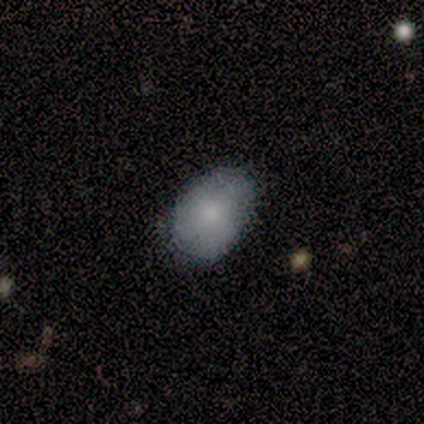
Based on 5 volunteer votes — Q: Smooth or featured?
A: smooth (60%); runner-up: featured or disk (40%)
Q: How rounded?
A: in between (100%)
Q: Merging?
A: minor disturbance (60%); runner-up: none (40%)